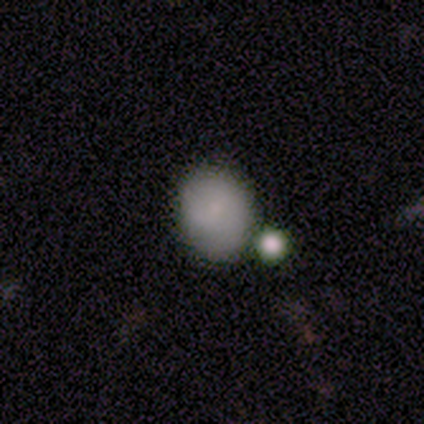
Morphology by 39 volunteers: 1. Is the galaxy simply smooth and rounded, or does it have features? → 79% smooth, 13% featured or disk, 8% star or artifact.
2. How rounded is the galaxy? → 74% round, 26% in between, 0% cigar-shaped.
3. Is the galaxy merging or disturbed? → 47% none, 33% merger, 14% minor disturbance, 6% major disturbance.